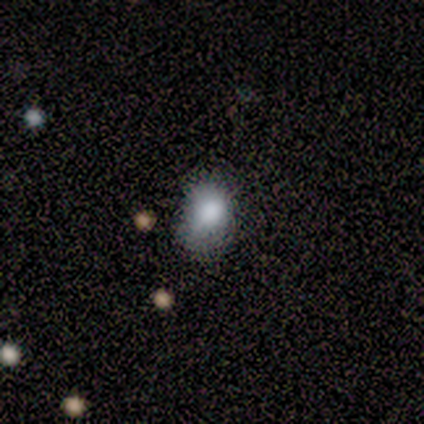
Smooth or featured?
  - smooth: 73% *
  - featured or disk: 15%
  - star or artifact: 12%
How rounded?
  - in between: 67% *
  - round: 33%
  - cigar-shaped: 0%
Merging?
  - minor disturbance: 50% *
  - none: 39%
  - major disturbance: 11%
  - merger: 0%